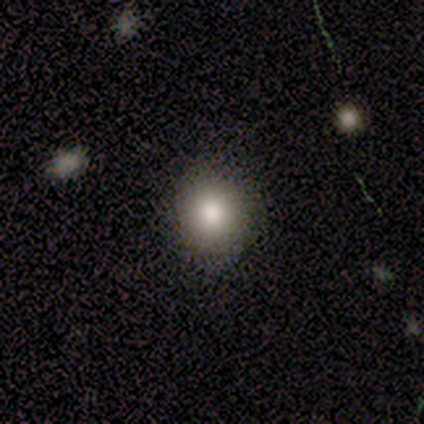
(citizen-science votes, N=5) A star or artifact, not a galaxy (60%).